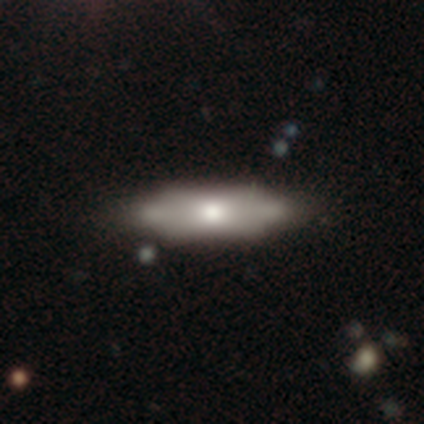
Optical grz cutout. It shows a smooth galaxy with no disk features (60%) that is in between round and cigar-shaped (67%). Merging: none (75%).